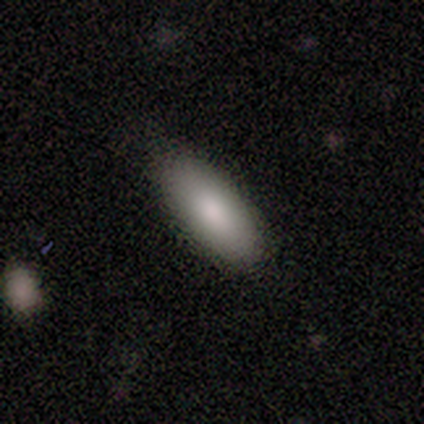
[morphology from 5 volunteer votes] This is clearly a smooth galaxy (100%). How rounded: clearly in between (80%). Merging: clearly none (100%).